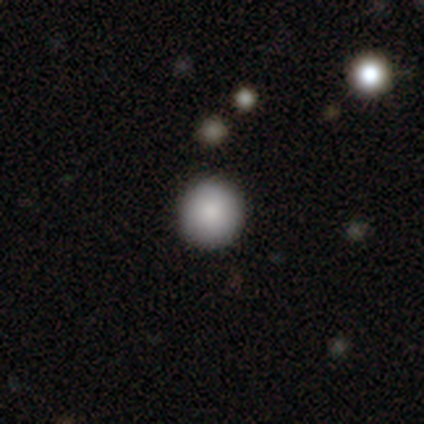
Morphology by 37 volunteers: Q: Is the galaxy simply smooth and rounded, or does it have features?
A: smooth — 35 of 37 (95%).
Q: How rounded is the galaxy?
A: round — 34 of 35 (97%).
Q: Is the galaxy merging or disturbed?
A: none — 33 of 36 (92%).